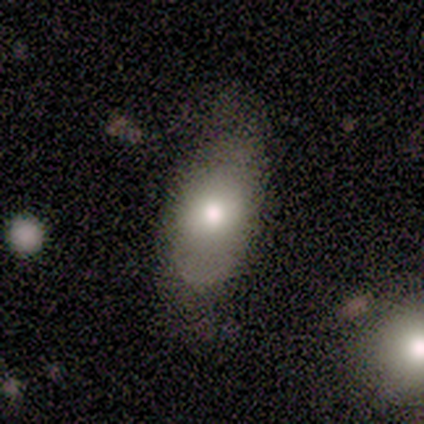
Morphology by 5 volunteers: smooth_or_featured: smooth (p=0.80) [alt: featured or disk p=0.20]
how_rounded: in between (p=1.00)
merging: minor disturbance (p=0.60) [alt: major disturbance p=0.40]